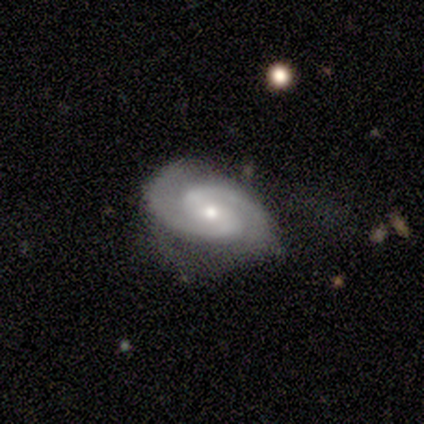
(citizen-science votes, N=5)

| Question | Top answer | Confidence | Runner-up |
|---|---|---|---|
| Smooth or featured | featured or disk | 80% | smooth (20%) |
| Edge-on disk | no | 100% | — |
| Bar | weak | 75% | no (25%) |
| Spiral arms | yes | 100% | — |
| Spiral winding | medium | 75% | tight (25%) |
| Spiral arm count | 2 | 100% | — |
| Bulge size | moderate | 50% | tied: small (50%) |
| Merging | minor disturbance | 80% | major disturbance (20%) |